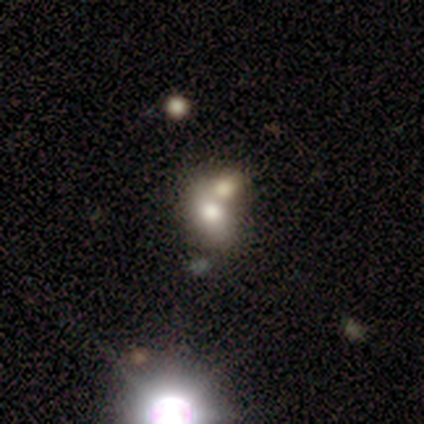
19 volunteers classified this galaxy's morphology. A smooth galaxy with no disk features (53%) that is in between round and cigar-shaped (80%).

Vote fractions:
- Smooth or featured? smooth: 53% / featured or disk: 26% / star or artifact: 21%
- How rounded? in between: 80% / round: 20% / cigar-shaped: 0%
- Merging? merger: 53% / none: 27% / minor disturbance: 20% / major disturbance: 0%